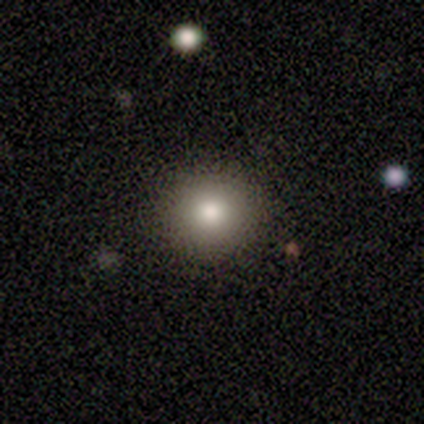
smooth-or-featured: smooth: 100% | featured or disk: 0% | star or artifact: 0%
  how-rounded: round: 86% | in between: 14% | cigar-shaped: 0%
  merging: none: 71% | minor disturbance: 14% | major disturbance: 14% | merger: 0%